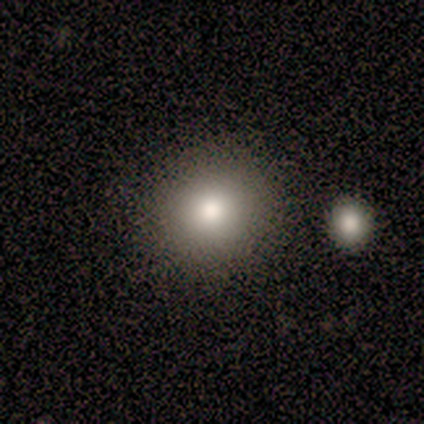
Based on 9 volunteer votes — Smooth or featured? smooth (78%)
How rounded? round (100%)
Merging? none (100%)